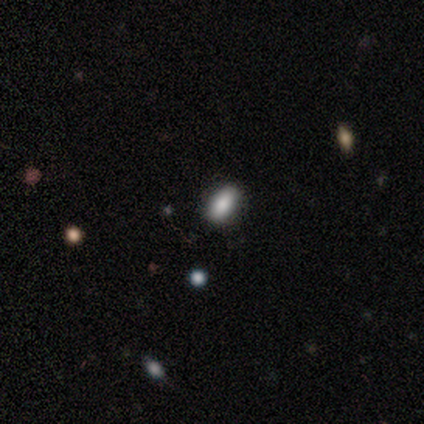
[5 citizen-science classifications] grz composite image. It shows a smooth galaxy with no disk features (80%) that is in between round and cigar-shaped (75%). Merging: none (100%).